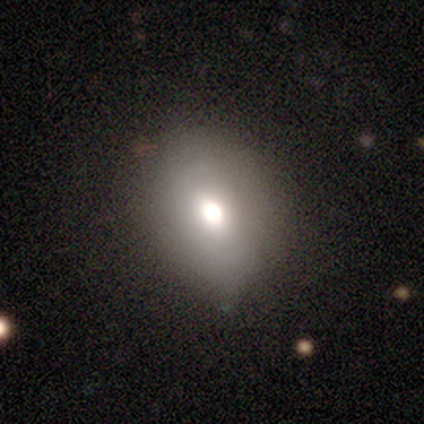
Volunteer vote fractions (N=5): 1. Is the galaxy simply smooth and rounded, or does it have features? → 80% smooth, 20% featured or disk, 0% star or artifact.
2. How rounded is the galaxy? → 75% round, 25% in between, 0% cigar-shaped.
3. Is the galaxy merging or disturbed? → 80% none, 20% minor disturbance, 0% major disturbance, 0% merger.